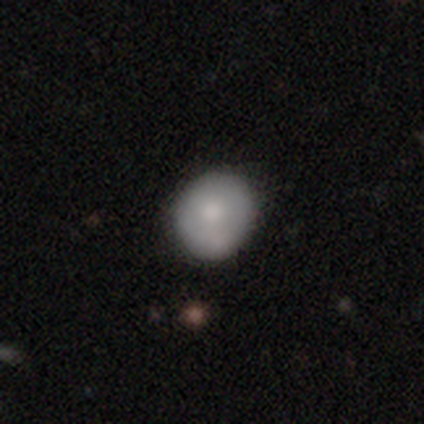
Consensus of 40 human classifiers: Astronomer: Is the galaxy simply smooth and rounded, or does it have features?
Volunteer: smooth — 82%.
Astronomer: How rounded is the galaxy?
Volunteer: round — 76%.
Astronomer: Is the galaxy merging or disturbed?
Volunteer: none — 66%.